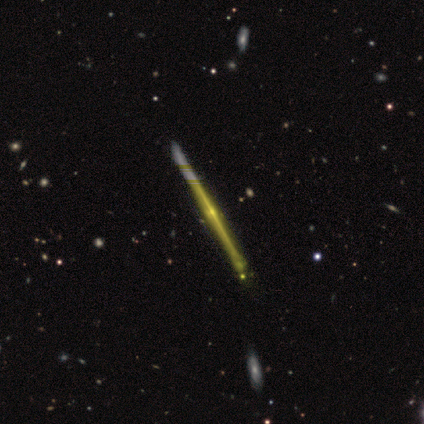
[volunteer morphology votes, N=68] Smooth or featured? 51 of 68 (75%) said featured or disk. Edge-on disk? 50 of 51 (98%) said yes. Edge-on bulge? 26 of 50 (52%) said rounded. Merging? 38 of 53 (72%) said none.